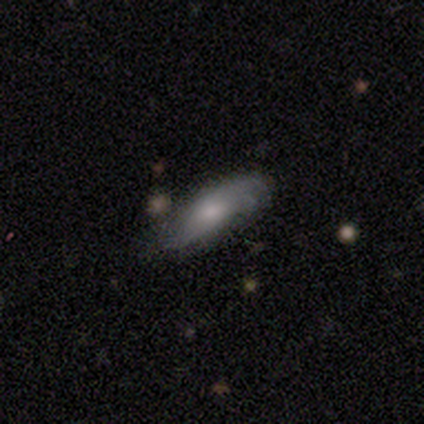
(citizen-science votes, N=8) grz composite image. It shows a smooth galaxy with no disk features (50%, tied with featured or disk) that is in between round and cigar-shaped (75%). Merging: none (62%).